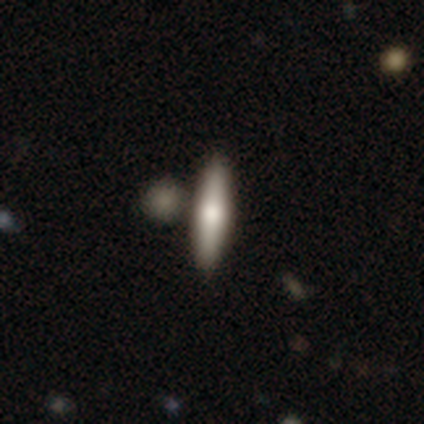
A smooth galaxy with no disk features (67%) that is cigar-shaped (88%).

Vote fractions:
- Smooth or featured? smooth: 67% / featured or disk: 29% / star or artifact: 4%
- How rounded? cigar-shaped: 88% / in between: 12% / round: 0%
- Merging? none: 39% / merger: 25% / minor disturbance: 1% / major disturbance: 0%